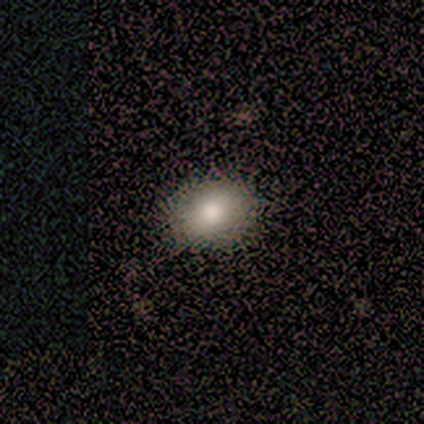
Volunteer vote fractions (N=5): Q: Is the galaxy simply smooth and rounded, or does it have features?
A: smooth — 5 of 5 (100%).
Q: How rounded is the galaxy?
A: in between — 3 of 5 (60%).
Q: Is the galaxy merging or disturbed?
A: none — 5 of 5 (100%).